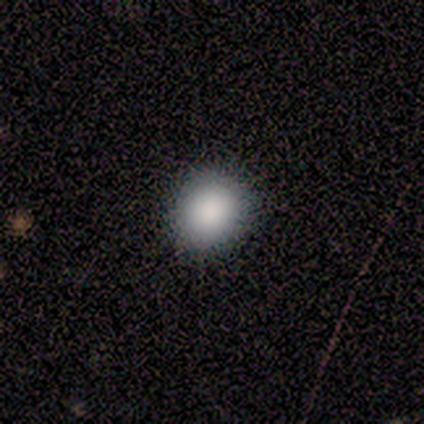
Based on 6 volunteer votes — Morphology: type=smooth (100%); roundness=round (83%); merging=none (83%).